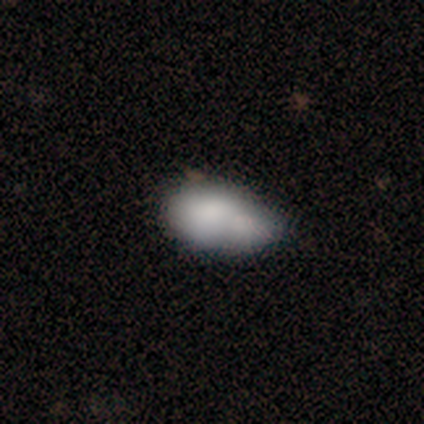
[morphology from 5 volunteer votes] type=smooth (60%); roundness=in between (67%); merging=merger (50%).